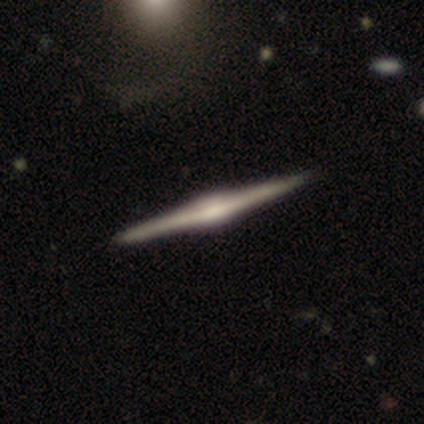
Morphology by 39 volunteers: A featured or disk galaxy (97%) viewed edge-on (100%) with a rounded central bulge (63%).

Vote fractions:
- Smooth or featured? featured or disk: 97% / smooth: 3% / star or artifact: 0%
- Edge-on disk? yes: 100% / no: 0%
- Edge-on bulge? rounded: 63% / boxy: 34% / none: 3%
- Merging? none: 67% / minor disturbance: 3% / major disturbance: 0% / merger: 0%